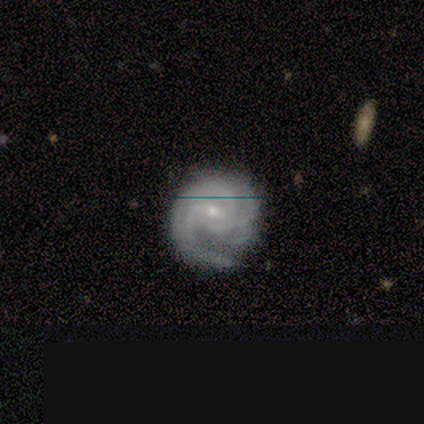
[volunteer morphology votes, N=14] Smooth or featured?
  - featured or disk: 79% *
  - smooth: 21%
  - star or artifact: 0%
Edge-on disk?
  - no: 100% *
  - yes: 0%
Bar?
  - weak: 55% *
  - no: 45%
  - strong: 0%
Spiral arms?
  - yes: 100% *
  - no: 0%
Spiral winding?
  - tight: 55% *
  - medium: 45%
  - loose: 0%
Spiral arm count?
  - 3: 55% *
  - 2: 27%
  - can't tell: 18%
  - 1: 0%
  - 4: 0%
  - more than 4: 0%
Bulge size?
  - small: 91% *
  - moderate: 9%
  - dominant: 0%
  - large: 0%
  - none: 0%
Merging?
  - none: 64% *
  - minor disturbance: 29%
  - major disturbance: 7%
  - merger: 0%